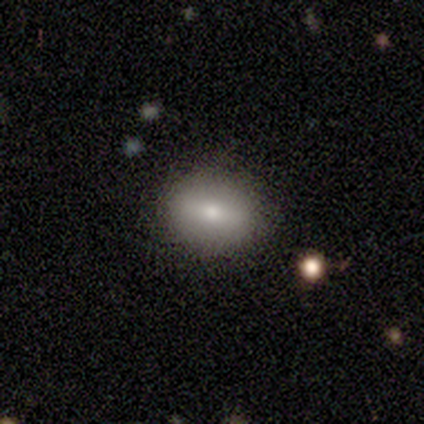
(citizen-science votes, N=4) Morphology: type=smooth (50%, tied with featured or disk); roundness=round (50%, tied with in between); merging=none (100%).